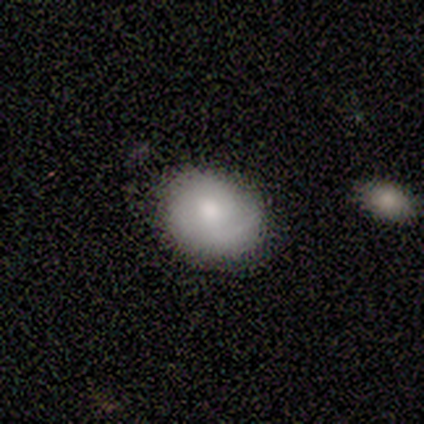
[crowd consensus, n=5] Morphology: type=smooth (60%); roundness=round (67%); merging=minor disturbance (60%).